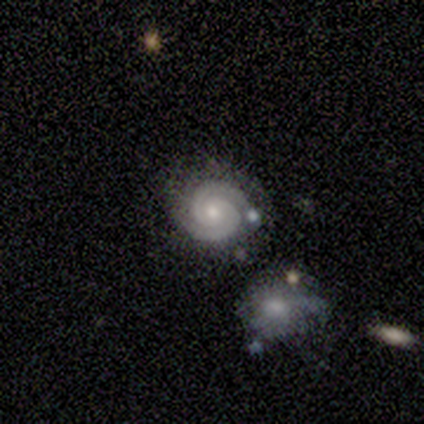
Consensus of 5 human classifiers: Smooth or featured? 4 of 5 (80%) said featured or disk. Edge-on disk? 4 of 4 (100%) said no. Bar? 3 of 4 (75%) said no. Spiral arms? 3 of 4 (75%) said yes. Spiral winding? 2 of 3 (67%) said tight. Spiral arm count? 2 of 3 (67%) said 2. Bulge size? 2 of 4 (50%, tied with small) said moderate. Merging? 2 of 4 (50%) said none.